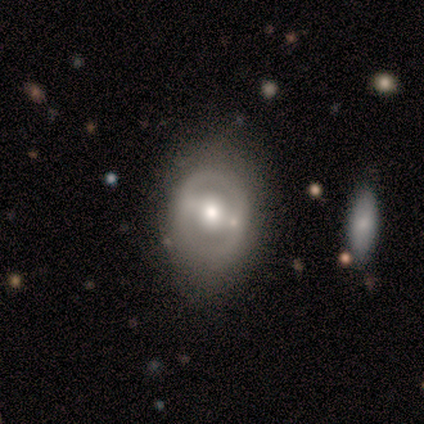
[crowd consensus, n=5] Morphology: type=featured or disk (80%); edge-on=no (75%); bar=strong (33%, tied with weak and no); spiral arms=no (67%); bulge=moderate (100%); merging=none (100%).